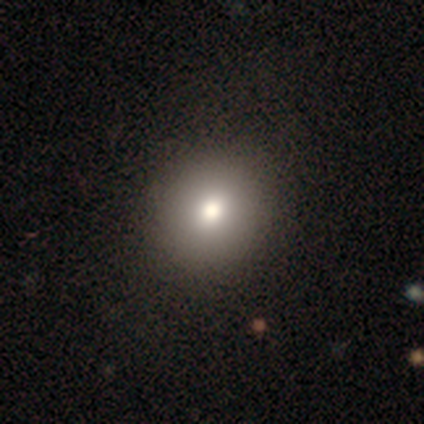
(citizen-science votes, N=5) Smooth or featured?
  - featured or disk: 60% *
  - smooth: 40%
  - star or artifact: 0%
Edge-on disk?
  - no: 100% *
  - yes: 0%
Bar?
  - no: 100% *
  - strong: 0%
  - weak: 0%
Spiral arms?
  - no: 100% *
  - yes: 0%
Bulge size?
  - moderate: 100% *
  - dominant: 0%
  - large: 0%
  - small: 0%
  - none: 0%
Merging?
  - none: 100% *
  - minor disturbance: 0%
  - major disturbance: 0%
  - merger: 0%